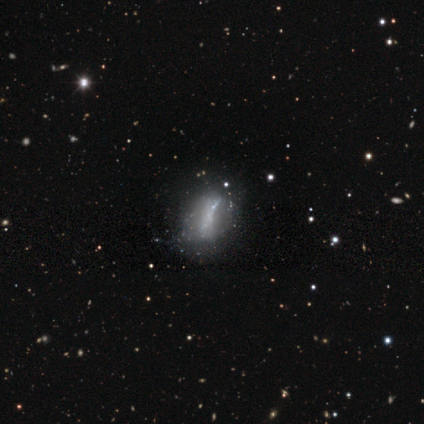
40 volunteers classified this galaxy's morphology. This appears to be a featured or disk galaxy (70%) with no bar (77%), no spiral arms (92%) and no central bulge (69%). Merging: none (49%).